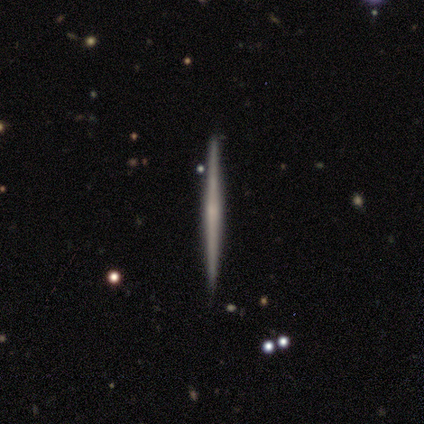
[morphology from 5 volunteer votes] Smooth or featured: featured or disk — 60% (smooth — 40%)
Edge-on disk: yes — 100%
Edge-on bulge: none — 100%
Merging: none — 80% (merger — 20%)